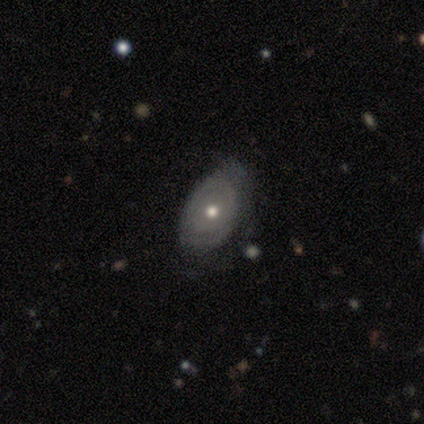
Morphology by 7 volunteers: smooth-or-featured: featured or disk: 100% | smooth: 0% | star or artifact: 0%
  disk-edge-on: no: 100% | yes: 0%
    bar: no: 100% | strong: 0% | weak: 0%
    has-spiral-arms: no: 86% | yes: 14%
    bulge-size: moderate: 71% | small: 29% | dominant: 0% | large: 0% | none: 0%
  merging: none: 43% (tied) | minor disturbance: 43% (tied) | major disturbance: 14% | merger: 0%